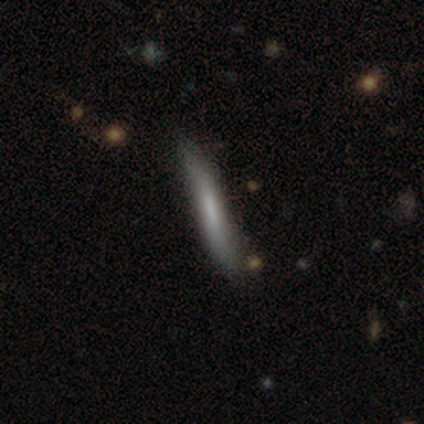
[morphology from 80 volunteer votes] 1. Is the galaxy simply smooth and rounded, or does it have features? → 57% smooth, 40% featured or disk, 2% star or artifact.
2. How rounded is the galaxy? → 98% cigar-shaped, 2% in between, 0% round.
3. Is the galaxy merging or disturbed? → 55% none, 8% minor disturbance, 1% major disturbance, 1% merger.